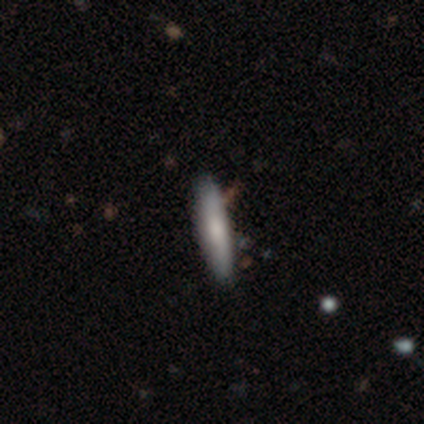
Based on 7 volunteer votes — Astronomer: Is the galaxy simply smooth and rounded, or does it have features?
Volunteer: smooth — 71%.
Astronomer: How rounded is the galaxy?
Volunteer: cigar-shaped — 80%.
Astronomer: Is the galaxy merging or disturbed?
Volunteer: none — 86%.